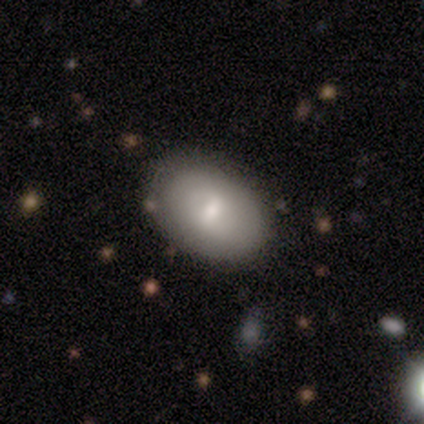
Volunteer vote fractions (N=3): This is clearly a smooth galaxy (100%). How rounded: clearly in between (100%). Merging: likely major disturbance (67%).